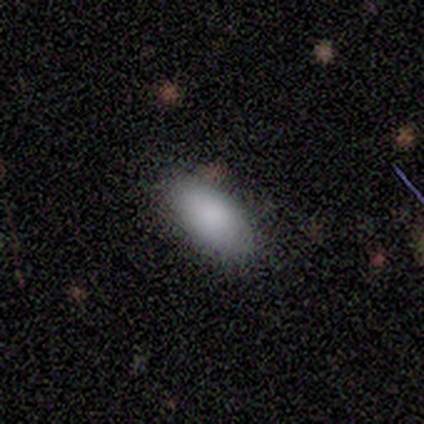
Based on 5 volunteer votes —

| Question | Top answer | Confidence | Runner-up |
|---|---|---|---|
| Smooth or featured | smooth | 80% | star or artifact (20%) |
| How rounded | in between | 100% | — |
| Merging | none | 50% | tied: minor disturbance (50%) |